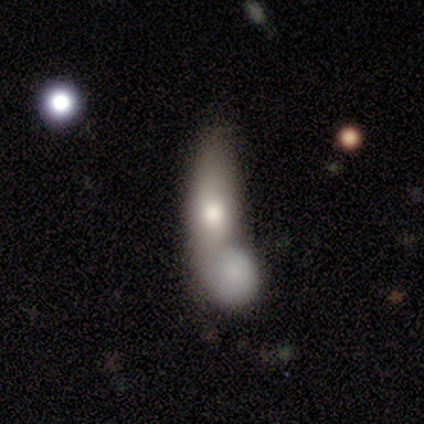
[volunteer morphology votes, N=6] smooth_or_featured: smooth (p=0.67) [alt: featured or disk p=0.33]
how_rounded: in between (p=1.00)
merging: merger (p=0.83) [alt: none p=0.17]